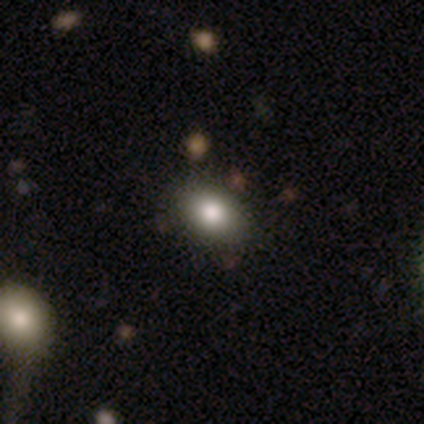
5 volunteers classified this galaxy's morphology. A smooth galaxy with no disk features (80%) that is in between round and cigar-shaped (100%). Merging: none (50%, tied with minor disturbance).